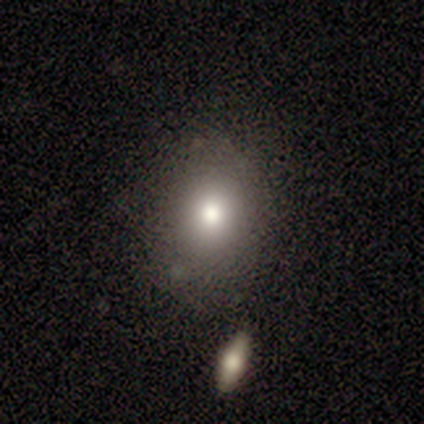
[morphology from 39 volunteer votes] smooth_or_featured: smooth (p=0.69) [alt: star or artifact p=0.18]
how_rounded: round (p=0.56) [alt: in between p=0.41]
merging: none (p=0.69) [alt: minor disturbance p=0.22]